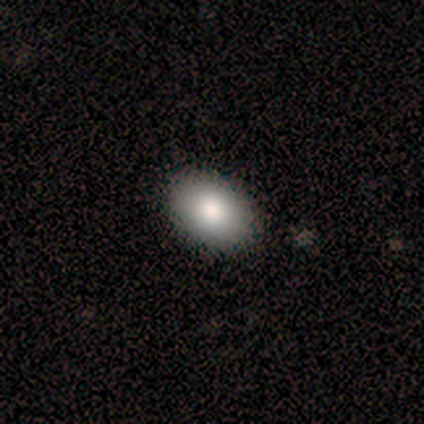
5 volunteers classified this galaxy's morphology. This is likely a smooth galaxy (60%). How rounded: clearly in between (100%). Merging: clearly none (100%).